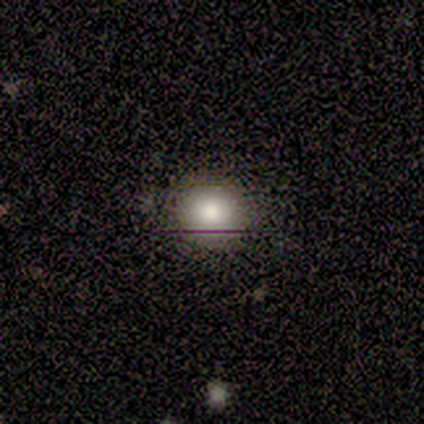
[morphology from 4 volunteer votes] Smooth or featured? smooth (50%, tied with star or artifact)
How rounded? round (100%)
Merging? none (100%)